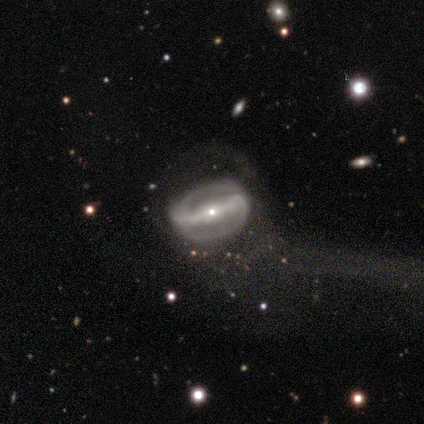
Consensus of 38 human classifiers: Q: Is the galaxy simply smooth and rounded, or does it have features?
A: featured or disk — 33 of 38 (87%).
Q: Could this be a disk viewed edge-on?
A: no — 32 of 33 (97%).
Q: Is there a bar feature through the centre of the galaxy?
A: strong — 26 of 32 (81%).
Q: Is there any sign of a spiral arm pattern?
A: yes — 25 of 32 (78%).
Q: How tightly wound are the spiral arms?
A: tight — 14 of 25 (56%).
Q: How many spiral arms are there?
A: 2 — 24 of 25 (96%).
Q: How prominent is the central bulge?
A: small — 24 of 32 (75%).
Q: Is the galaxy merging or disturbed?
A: none — 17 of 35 (49%).